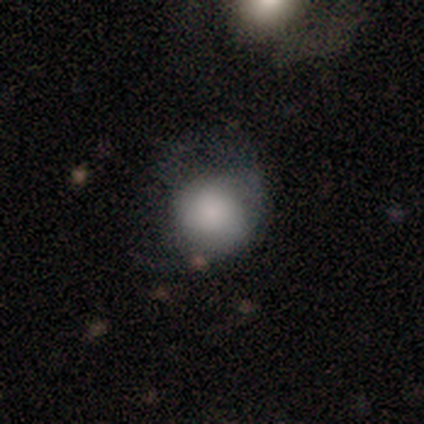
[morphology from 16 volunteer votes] Volunteers were most divided on "merging": none: 44%, major disturbance: 38%, minor disturbance: 19%, merger: 0%. More confident: smooth or featured — smooth (88%); how rounded — round (86%).